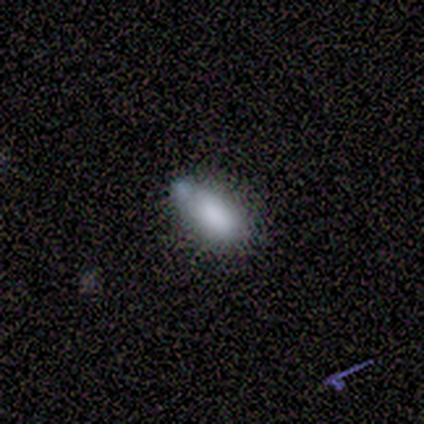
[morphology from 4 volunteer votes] This is clearly a smooth galaxy (100%). How rounded: clearly in between (100%). Merging: likely minor disturbance (75%).